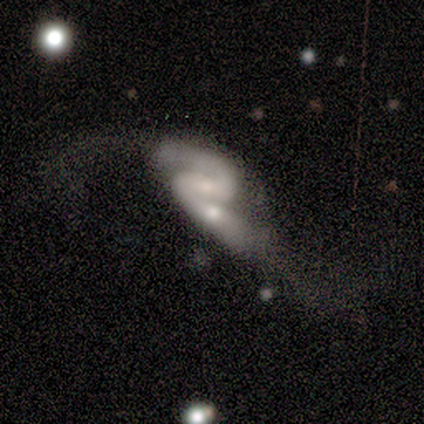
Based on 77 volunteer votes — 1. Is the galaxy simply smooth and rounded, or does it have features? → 87% featured or disk, 6% smooth, 6% star or artifact.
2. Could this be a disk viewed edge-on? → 99% no, 1% yes.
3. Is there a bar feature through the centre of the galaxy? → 41% weak, 30% no, 29% strong.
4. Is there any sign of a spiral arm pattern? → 89% yes, 11% no.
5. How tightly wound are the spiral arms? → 49% loose, 37% medium, 14% tight.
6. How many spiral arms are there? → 98% 2, 2% can't tell, 0% 1, 0% 3, 0% 4, 0% more than 4.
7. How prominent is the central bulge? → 48% small, 41% moderate, 9% none, 2% large, 0% dominant.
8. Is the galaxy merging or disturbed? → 46% merger, 24% major disturbance, 21% minor disturbance, 10% none.